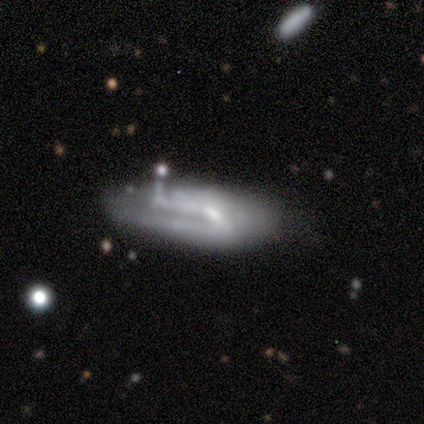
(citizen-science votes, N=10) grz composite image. It shows a smooth galaxy with no disk features (60%) that is in between round and cigar-shaped (50%, tied with cigar-shaped). Merging: none (44%, tied with minor disturbance).